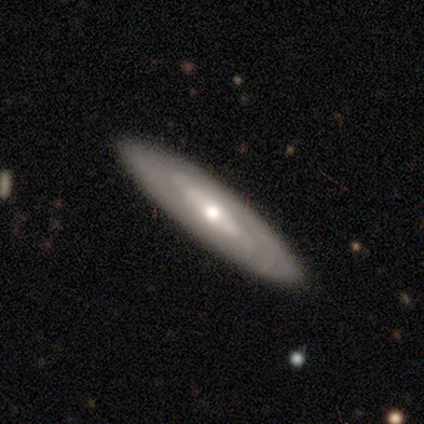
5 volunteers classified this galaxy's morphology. Volunteers were most divided on "edge-on bulge" (2-way tie): none: 50%, rounded: 50%, boxy: 0%. More confident: merging — none (100%); edge-on disk — yes (67%); smooth or featured — featured or disk (60%).